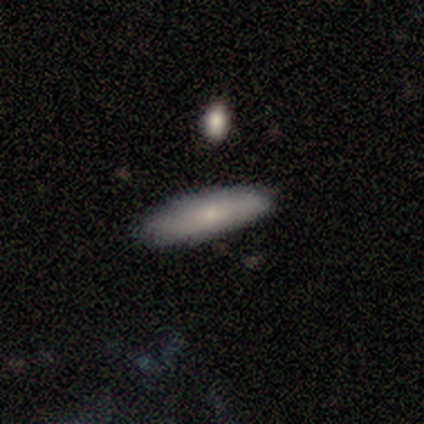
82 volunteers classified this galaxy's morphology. A smooth galaxy with no disk features (70%) that is cigar-shaped (74%).

Vote fractions:
- Smooth or featured? smooth: 70% / featured or disk: 26% / star or artifact: 5%
- How rounded? cigar-shaped: 74% / in between: 26% / round: 0%
- Merging? none: 82% / minor disturbance: 13% / major disturbance: 3% / merger: 3%